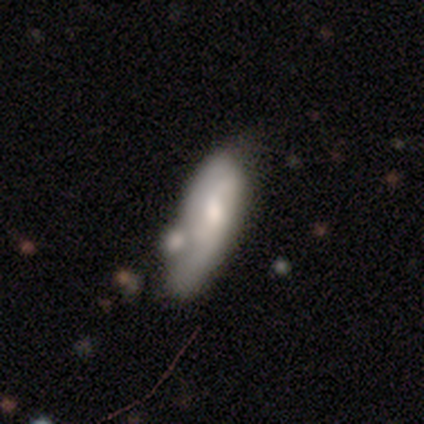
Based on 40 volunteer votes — Smooth or featured? featured or disk (52%)
Edge-on disk? no (90%)
Bar? no (53%)
Spiral arms? yes (58%)
Spiral winding? loose (45%)
Spiral arm count? 2 (73%)
Bulge size? moderate (63%)
Merging? merger (39%)